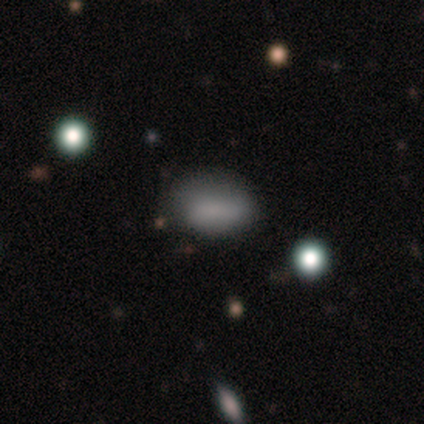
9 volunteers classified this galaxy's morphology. Overall: smooth (100%). How rounded: in between (78%). Merging: none (56%; minor disturbance 44%).